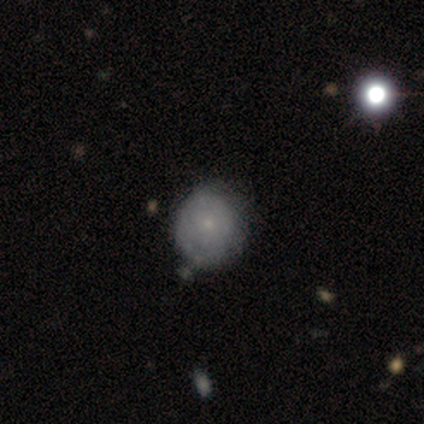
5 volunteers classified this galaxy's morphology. A featured or disk galaxy (80%) with no bar (75%), 1 (50%, tied with 2) tight (100%) spiral arms (50%, tied with no) and a small central bulge (100%).

Vote fractions:
- Smooth or featured? featured or disk: 80% / star or artifact: 20% / smooth: 0%
- Edge-on disk? no: 100% / yes: 0%
- Bar? no: 75% / weak: 25% / strong: 0%
- Spiral arms? yes: 50% (tied) / no: 50% (tied)
- Spiral winding? tight: 100% / medium: 0% / loose: 0%
- Spiral arm count? 1: 50% (tied) / 2: 50% (tied) / 3: 0% / 4: 0% / more than 4: 0% / can't tell: 0%
- Bulge size? small: 100% / dominant: 0% / large: 0% / moderate: 0% / none: 0%
- Merging? none: 50% (tied) / minor disturbance: 50% (tied) / major disturbance: 0% / merger: 0%